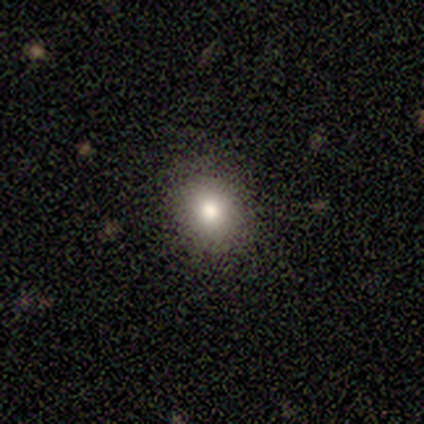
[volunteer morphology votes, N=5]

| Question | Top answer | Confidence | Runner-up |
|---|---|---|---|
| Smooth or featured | smooth | 40% | tied: star or artifact (40%) |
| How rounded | round | 100% | — |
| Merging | none | 100% | — |